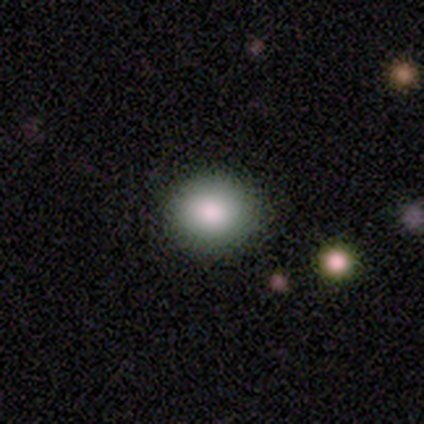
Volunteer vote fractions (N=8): Smooth or featured? smooth (75%)
How rounded? round (83%)
Merging? none (100%)